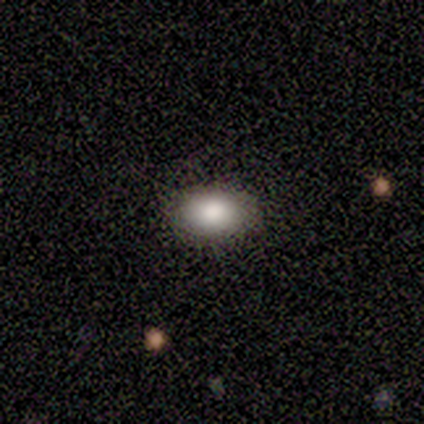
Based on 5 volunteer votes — Smooth or featured: smooth — 80% (star or artifact — 20%)
How rounded: in between — 100%
Merging: none — 100%